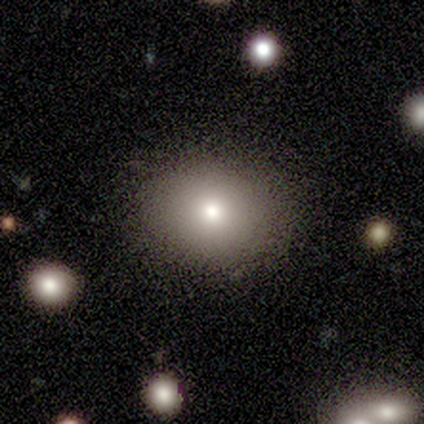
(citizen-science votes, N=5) Overall: smooth (100%). How rounded: round (80%). Merging: none (100%).